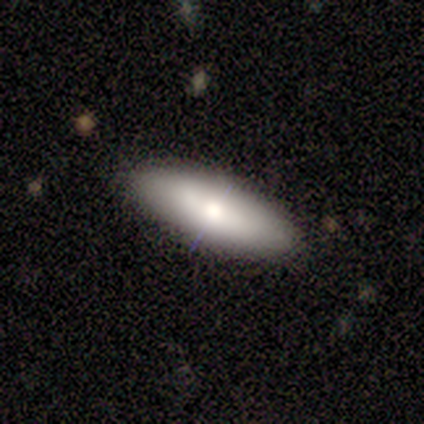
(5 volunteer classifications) Smooth or featured? 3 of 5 (60%) said smooth. How rounded? 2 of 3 (67%) said cigar-shaped. Merging? 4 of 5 (80%) said none.